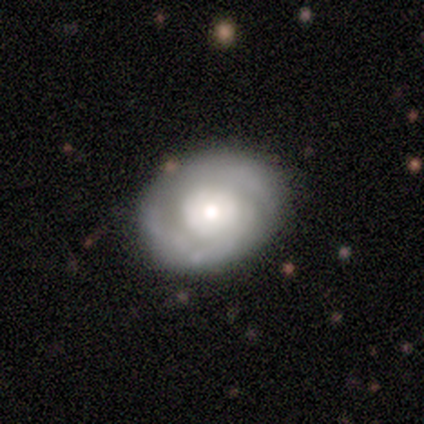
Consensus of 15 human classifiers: smooth-or-featured: featured or disk: 87% | smooth: 13% | star or artifact: 0%
  disk-edge-on: no: 92% | yes: 8%
    bar: no: 92% | strong: 8% | weak: 0%
    has-spiral-arms: yes: 92% | no: 8%
      spiral-winding: tight: 55% | medium: 27% | loose: 18%
      spiral-arm-count: 2: 82% | 1: 18% | 3: 0% | 4: 0% | more than 4: 0% | can't tell: 0%
    bulge-size: large: 33% (tied) | moderate: 33% (tied) | small: 25% | none: 8% | dominant: 0%
  merging: none: 53% | minor disturbance: 40% | major disturbance: 7% | merger: 0%